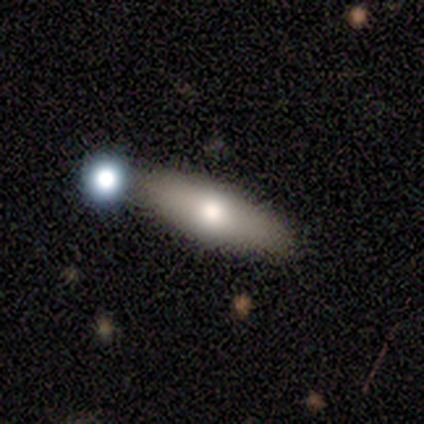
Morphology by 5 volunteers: Volunteers were most divided on "smooth or featured": smooth: 60%, featured or disk: 40%, star or artifact: 0%. More confident: how rounded — cigar-shaped (67%); merging — none (60%).